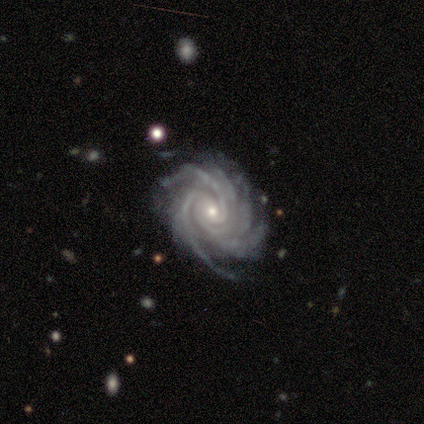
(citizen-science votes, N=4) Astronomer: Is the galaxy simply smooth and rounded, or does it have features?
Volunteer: featured or disk — 100%.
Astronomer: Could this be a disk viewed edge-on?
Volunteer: no — 100%.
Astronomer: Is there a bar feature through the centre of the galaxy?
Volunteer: no — 75%.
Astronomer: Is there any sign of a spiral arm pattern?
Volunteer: yes — 100%.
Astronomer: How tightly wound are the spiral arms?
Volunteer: tight — 50%, tied with medium at 50%.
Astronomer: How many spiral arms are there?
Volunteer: more than 4 — 75%.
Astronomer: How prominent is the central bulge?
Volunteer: moderate — 50%, tied with small at 50%.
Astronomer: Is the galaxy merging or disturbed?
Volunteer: none — 100%.